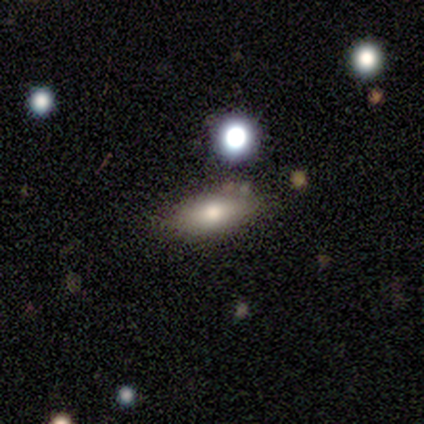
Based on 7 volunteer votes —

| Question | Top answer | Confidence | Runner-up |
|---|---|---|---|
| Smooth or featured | smooth | 86% | star or artifact (14%) |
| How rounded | in between | 83% | cigar-shaped (17%) |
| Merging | none | 83% | minor disturbance (17%) |